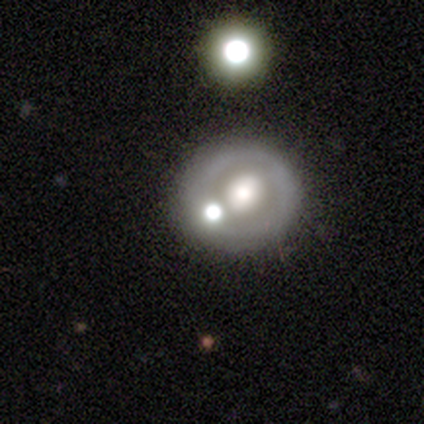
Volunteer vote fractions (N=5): Smooth or featured?
  - smooth: 40% * (tied)
  - featured or disk: 40% * (tied)
  - star or artifact: 20%
How rounded?
  - round: 100% *
  - in between: 0%
  - cigar-shaped: 0%
Merging?
  - none: 75% *
  - major disturbance: 25%
  - minor disturbance: 0%
  - merger: 0%